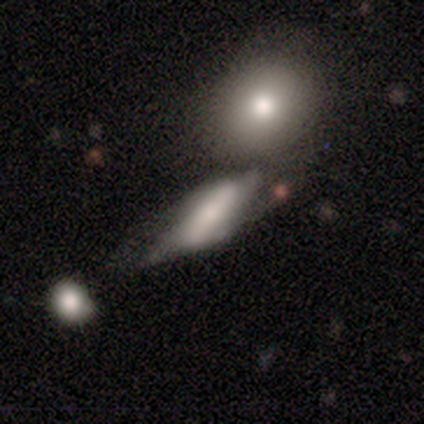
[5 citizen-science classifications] Smooth or featured? smooth (60%)
How rounded? in between (100%)
Merging? none (25%, tied with minor disturbance, major disturbance and merger)